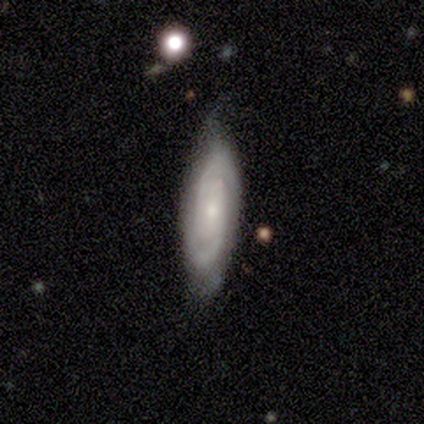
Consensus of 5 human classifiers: Q: Smooth or featured?
A: featured or disk (100%)
Q: Edge-on disk?
A: no (80%); runner-up: yes (20%)
Q: Bar?
A: no (75%); runner-up: weak (25%)
Q: Spiral arms?
A: yes (100%)
Q: Spiral winding?
A: tight (75%); runner-up: medium (25%)
Q: Spiral arm count?
A: 2 (75%); runner-up: 3 (25%)
Q: Bulge size?
A: small (100%)
Q: Merging?
A: none (80%); runner-up: minor disturbance (20%)